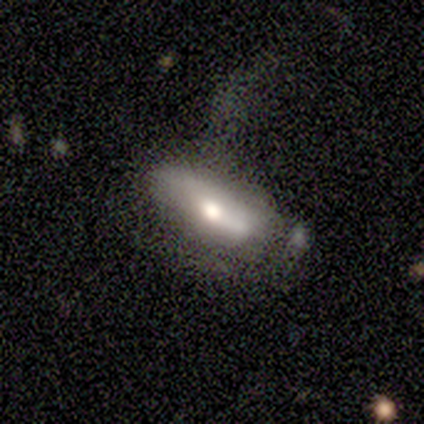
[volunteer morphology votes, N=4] Overall: smooth (75%). How rounded: in between (67%; cigar-shaped 33%). Merging: none (75%).